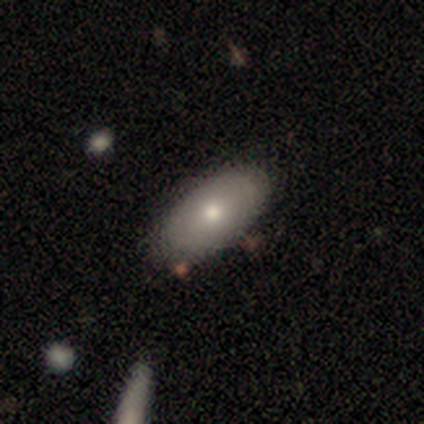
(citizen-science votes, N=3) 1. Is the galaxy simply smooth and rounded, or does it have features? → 100% smooth, 0% featured or disk, 0% star or artifact.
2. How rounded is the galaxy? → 100% in between, 0% round, 0% cigar-shaped.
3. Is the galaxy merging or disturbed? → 100% none, 0% minor disturbance, 0% major disturbance, 0% merger.